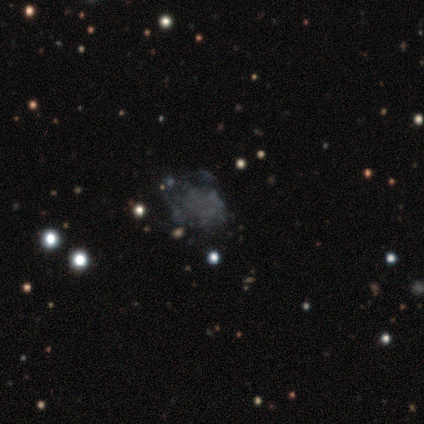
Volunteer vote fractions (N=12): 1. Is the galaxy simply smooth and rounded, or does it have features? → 58% featured or disk, 25% star or artifact, 17% smooth.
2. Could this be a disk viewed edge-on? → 100% no, 0% yes.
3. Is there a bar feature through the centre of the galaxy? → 100% no, 0% strong, 0% weak.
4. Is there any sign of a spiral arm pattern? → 100% no, 0% yes.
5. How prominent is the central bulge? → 100% none, 0% dominant, 0% large, 0% moderate, 0% small.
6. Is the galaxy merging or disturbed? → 44% major disturbance, 33% none, 22% minor disturbance, 0% merger.